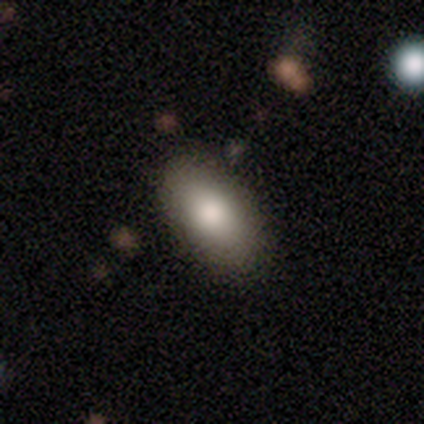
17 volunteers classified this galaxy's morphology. Smooth or featured?
  - smooth: 94% *
  - featured or disk: 6%
  - star or artifact: 0%
How rounded?
  - in between: 100% *
  - round: 0%
  - cigar-shaped: 0%
Merging?
  - none: 94% *
  - minor disturbance: 6%
  - major disturbance: 0%
  - merger: 0%